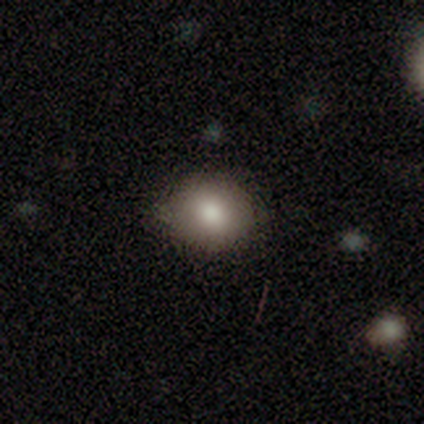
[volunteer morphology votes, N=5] A smooth galaxy with no disk features (80%) that is round (75%). Merging: none (80%).